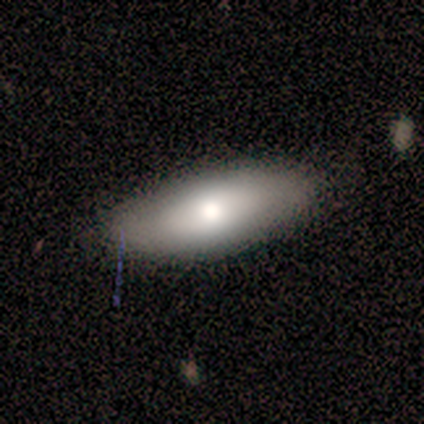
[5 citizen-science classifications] Q: Smooth or featured?
A: smooth (80%); runner-up: featured or disk (20%)
Q: How rounded?
A: in between (100%)
Q: Merging?
A: none (100%)